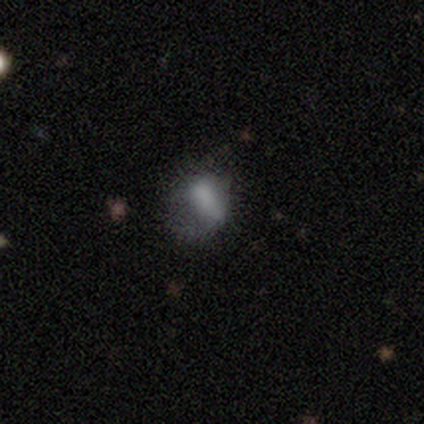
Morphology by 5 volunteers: smooth 80%, star or artifact 20%, featured or disk 0%. Down the decision tree: how rounded — round (50%, tied with in between); merging — none (50%).